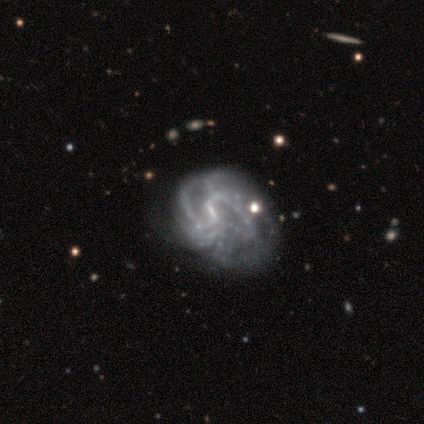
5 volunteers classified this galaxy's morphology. A featured or disk galaxy (100%) with a weak bar (60%), tight (50%) spiral arms (80%) and no central bulge (100%).

Vote fractions:
- Smooth or featured? featured or disk: 100% / smooth: 0% / star or artifact: 0%
- Edge-on disk? no: 100% / yes: 0%
- Bar? weak: 60% / no: 40% / strong: 0%
- Spiral arms? yes: 80% / no: 20%
- Spiral winding? tight: 50% / medium: 25% / loose: 25%
- Spiral arm count? can't tell: 50% / 1: 25% / more than 4: 25% / 2: 0% / 3: 0% / 4: 0%
- Bulge size? none: 100% / dominant: 0% / large: 0% / moderate: 0% / small: 0%
- Merging? none: 60% / major disturbance: 40% / minor disturbance: 0% / merger: 0%